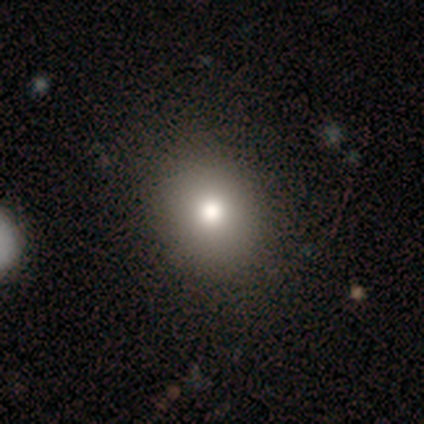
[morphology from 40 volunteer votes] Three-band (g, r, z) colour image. It shows a smooth galaxy with no disk features (82%) that is round (55%). Merging: none (63%).